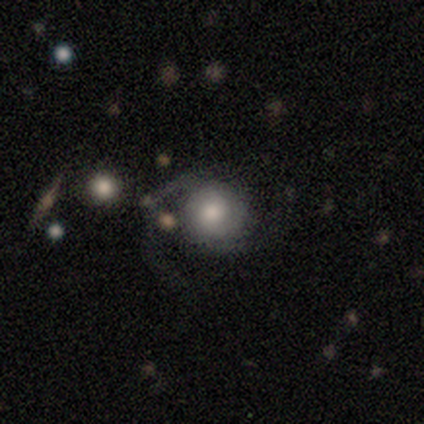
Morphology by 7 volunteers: Volunteers were most divided on "spiral winding" (2-way tie): tight: 50%, medium: 50%, loose: 0%. More confident: edge-on disk — no (100%); bar — no (100%); spiral arms — yes (100%); spiral arm count — 2 (75%); bulge size — moderate (75%); smooth or featured — featured or disk (57%); merging — none (50%).